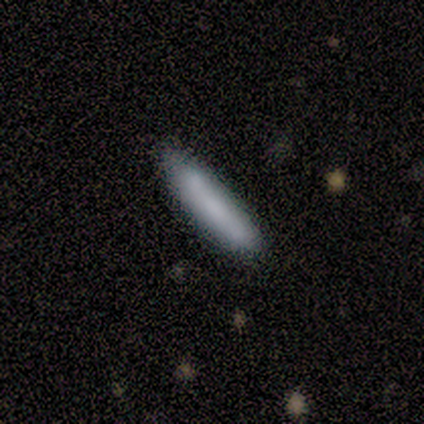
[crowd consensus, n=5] Morphology: type=smooth (100%); roundness=cigar-shaped (100%); merging=none (80%).